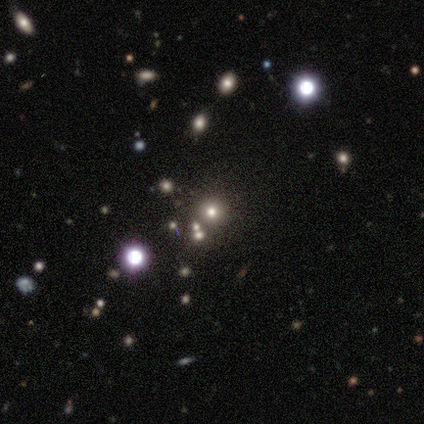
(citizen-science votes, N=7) Morphology: type=smooth (43%, tied with star or artifact); roundness=round (100%); merging=none (50%, tied with merger).